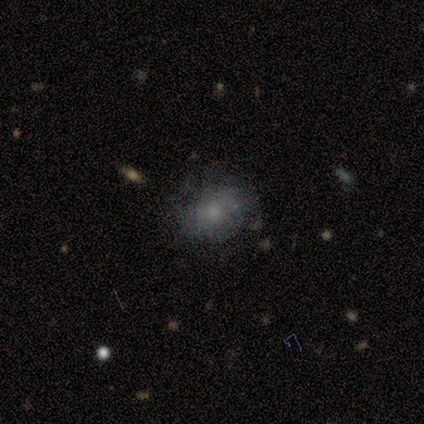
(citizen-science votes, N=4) smooth 75%, star or artifact 25%, featured or disk 0%. Down the decision tree: how rounded — round (67%); merging — none (33%, tied with minor disturbance and major disturbance).